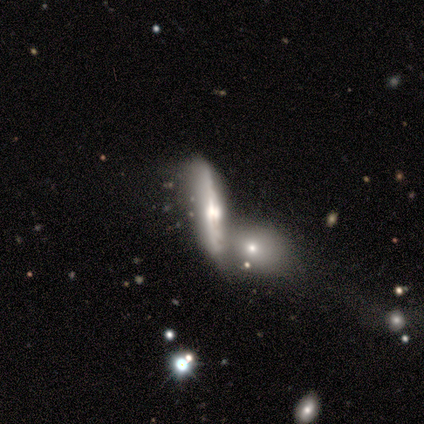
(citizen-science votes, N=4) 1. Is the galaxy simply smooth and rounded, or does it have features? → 100% featured or disk, 0% smooth, 0% star or artifact.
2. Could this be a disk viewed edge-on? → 100% yes, 0% no.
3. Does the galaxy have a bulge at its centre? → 100% rounded, 0% boxy, 0% none.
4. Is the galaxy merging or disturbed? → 25% none (tied), 25% minor disturbance (tied), 25% major disturbance (tied), 25% merger (tied).